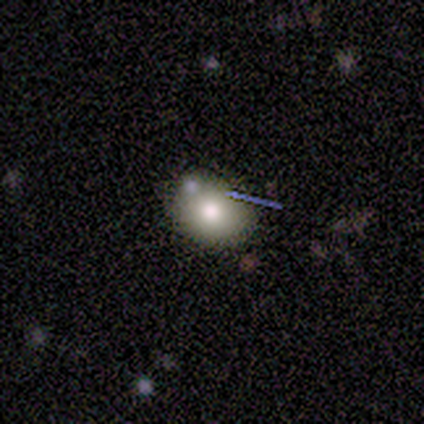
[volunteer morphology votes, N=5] smooth 60%, featured or disk 40%, star or artifact 0%. Down the decision tree: how rounded — in between (100%); merging — none (100%).